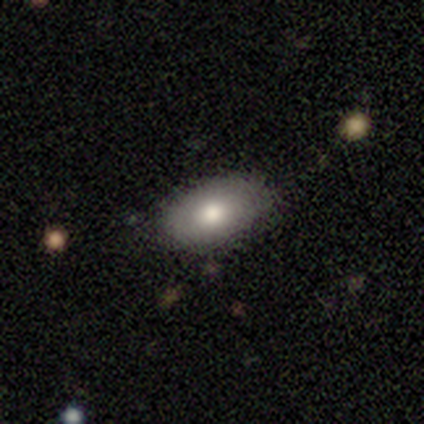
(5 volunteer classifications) A smooth galaxy with no disk features (80%) that is in between round and cigar-shaped (100%). Merging: none (60%).